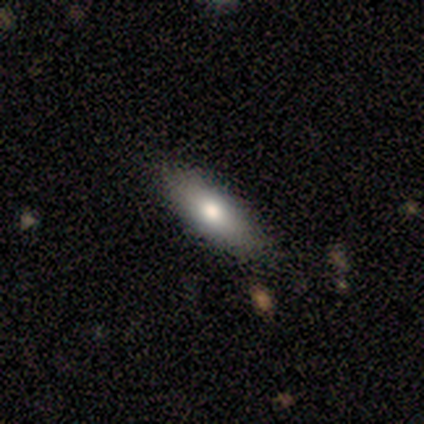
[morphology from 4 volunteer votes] Smooth or featured? smooth (100%)
How rounded? cigar-shaped (75%)
Merging? none (100%)